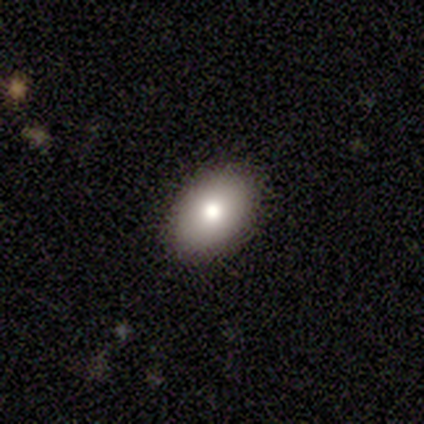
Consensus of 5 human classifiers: smooth 80%, featured or disk 20%, star or artifact 0%. Down the decision tree: how rounded — in between (100%); merging — none (100%).